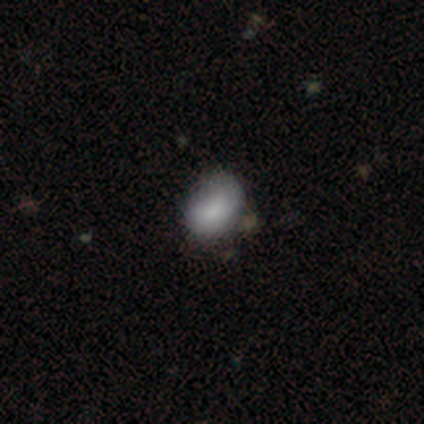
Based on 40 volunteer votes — Morphology: type=smooth (75%); roundness=in between (67%); merging=none (65%).